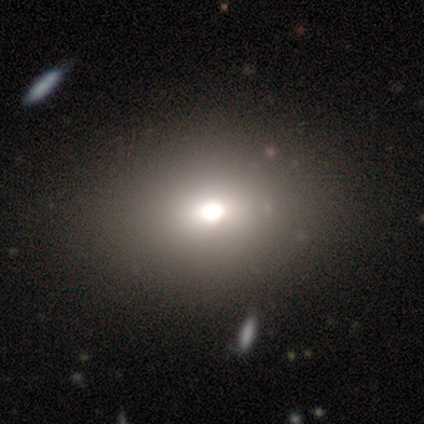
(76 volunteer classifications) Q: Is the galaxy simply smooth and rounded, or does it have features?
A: smooth — 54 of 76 (71%).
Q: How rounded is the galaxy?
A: in between — 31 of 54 (57%).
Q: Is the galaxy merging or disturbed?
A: none — 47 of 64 (73%).